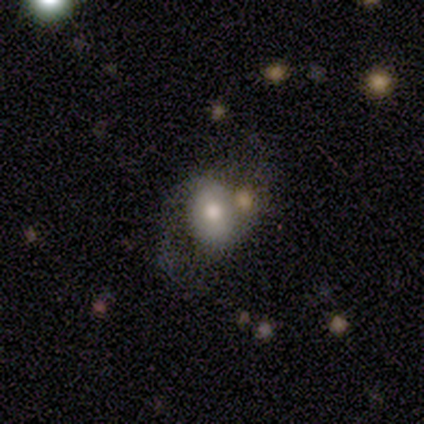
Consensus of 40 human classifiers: smooth-or-featured: featured or disk: 52% | smooth: 40% | star or artifact: 8%
  disk-edge-on: no: 95% | yes: 5%
    bar: no: 70% | weak: 20% | strong: 10%
    has-spiral-arms: yes: 65% | no: 35%
      spiral-winding: loose: 54% | medium: 46% | tight: 0%
      spiral-arm-count: 2: 92% | 1: 8% | 3: 0% | 4: 0% | more than 4: 0% | can't tell: 0%
    bulge-size: moderate: 75% | dominant: 10% | small: 10% | large: 5% | none: 0%
  merging: none: 57% | major disturbance: 19% | merger: 16% | minor disturbance: 8%